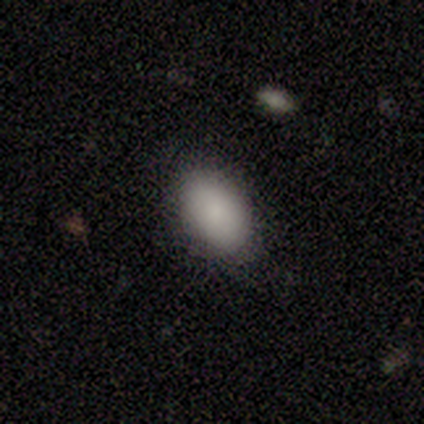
Smooth or featured?
  - smooth: 80% *
  - featured or disk: 20%
  - star or artifact: 0%
How rounded?
  - in between: 100% *
  - round: 0%
  - cigar-shaped: 0%
Merging?
  - none: 80% *
  - merger: 20%
  - minor disturbance: 0%
  - major disturbance: 0%